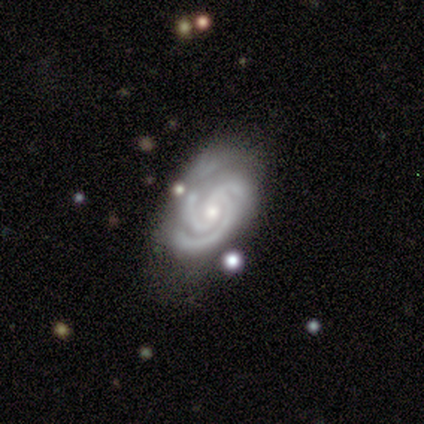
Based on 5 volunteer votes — Smooth or featured? 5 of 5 (100%) said featured or disk. Edge-on disk? 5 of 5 (100%) said no. Bar? 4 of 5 (80%) said no. Spiral arms? 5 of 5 (100%) said yes. Spiral winding? 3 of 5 (60%) said tight. Spiral arm count? 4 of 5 (80%) said 3. Bulge size? 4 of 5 (80%) said small. Merging? 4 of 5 (80%) said none.